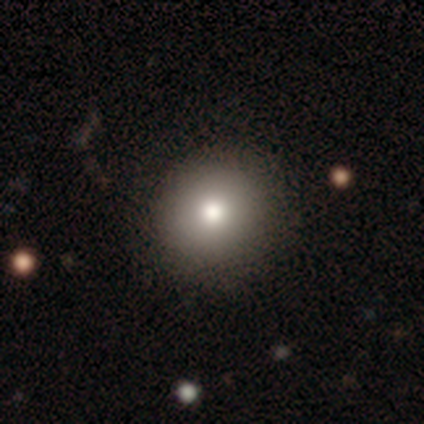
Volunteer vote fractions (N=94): A smooth galaxy with no disk features (76%) that is round (85%). Merging: none (81%).